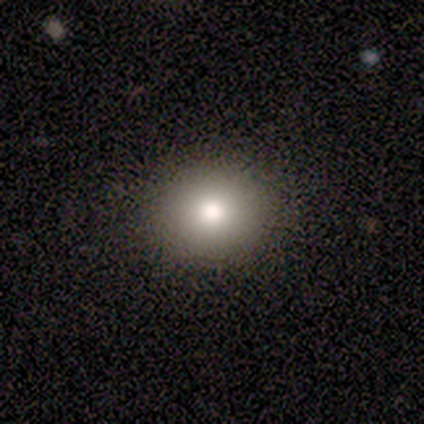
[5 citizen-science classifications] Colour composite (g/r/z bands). It shows a smooth galaxy with no disk features (100%) that is round (60%). Merging: none (100%).